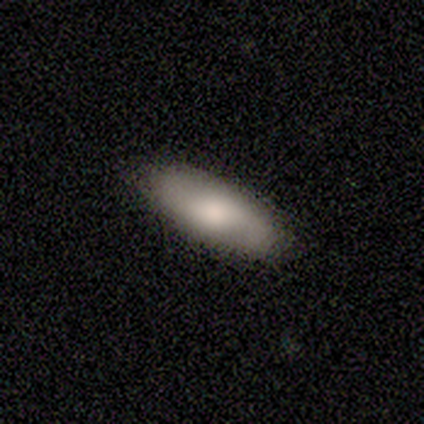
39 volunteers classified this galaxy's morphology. A smooth galaxy with no disk features (67%) that is in between round and cigar-shaped (73%). Merging: none (54%).